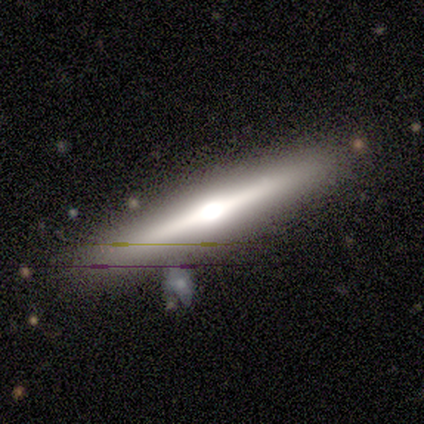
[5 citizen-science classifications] Q: Smooth or featured?
A: featured or disk (80%); runner-up: smooth (20%)
Q: Edge-on disk?
A: yes (75%); runner-up: no (25%)
Q: Edge-on bulge?
A: rounded (100%)
Q: Merging?
A: none (80%); runner-up: major disturbance (20%)